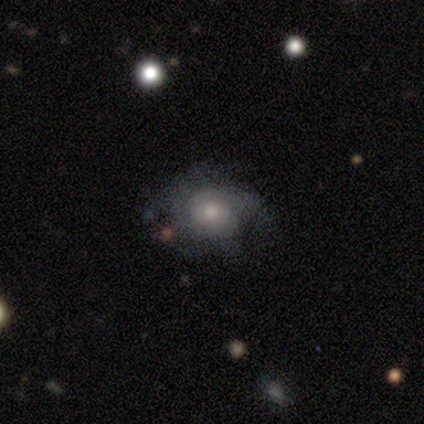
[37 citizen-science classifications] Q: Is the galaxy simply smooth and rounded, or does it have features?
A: featured or disk — 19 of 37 (51%).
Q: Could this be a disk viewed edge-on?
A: no — 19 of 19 (100%).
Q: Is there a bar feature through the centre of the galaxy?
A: no — 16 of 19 (84%).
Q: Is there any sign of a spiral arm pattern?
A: yes — 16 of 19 (84%).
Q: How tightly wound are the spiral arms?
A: tight — 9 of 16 (56%).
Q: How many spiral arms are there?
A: can't tell — 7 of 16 (44%).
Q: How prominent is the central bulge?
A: moderate — 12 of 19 (63%).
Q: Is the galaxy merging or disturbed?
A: none — 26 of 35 (74%).